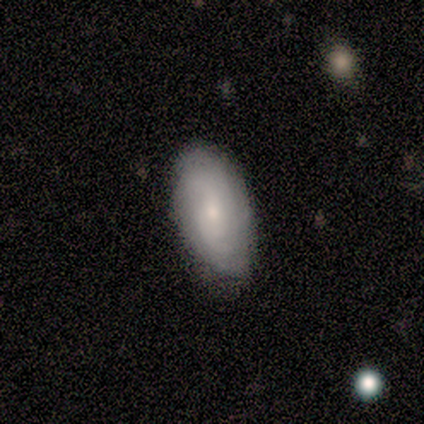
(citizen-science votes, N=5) A smooth galaxy with no disk features (80%) that is in between round and cigar-shaped (100%). Merging: none (60%).